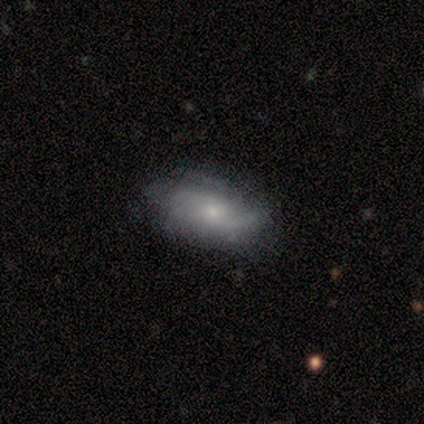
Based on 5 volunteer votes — Q: Smooth or featured?
A: smooth (40%); tied with: featured or disk (40%)
Q: How rounded?
A: in between (100%)
Q: Merging?
A: none (100%)